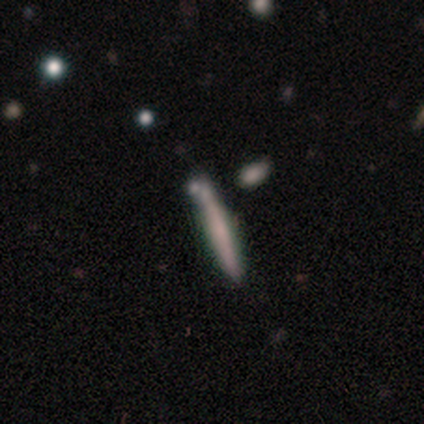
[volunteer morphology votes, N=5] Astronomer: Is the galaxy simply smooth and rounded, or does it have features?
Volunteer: featured or disk — 60% (runner-up: smooth, 40%).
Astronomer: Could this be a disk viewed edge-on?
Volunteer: yes — 100%.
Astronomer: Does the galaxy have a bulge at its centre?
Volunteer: rounded — 67%.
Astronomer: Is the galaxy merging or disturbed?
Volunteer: none — 60% (runner-up: minor disturbance, 40%).